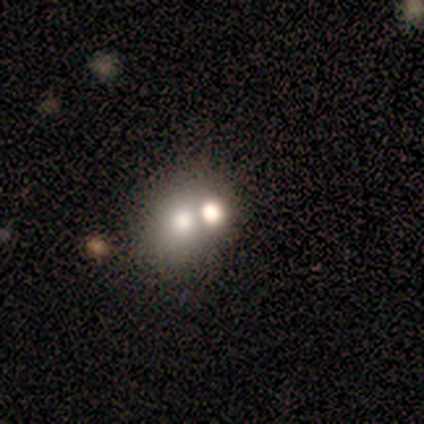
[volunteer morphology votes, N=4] Q: Smooth or featured?
A: smooth (50%); runner-up: featured or disk (25%)
Q: How rounded?
A: round (100%)
Q: Merging?
A: merger (100%)